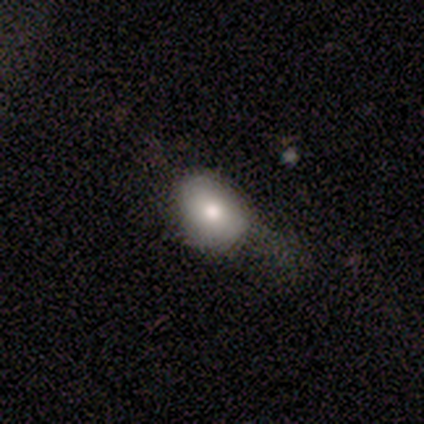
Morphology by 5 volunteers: smooth_or_featured: smooth (p=1.00)
how_rounded: in between (p=1.00)
merging: minor disturbance (p=0.60) [alt: none p=0.40]